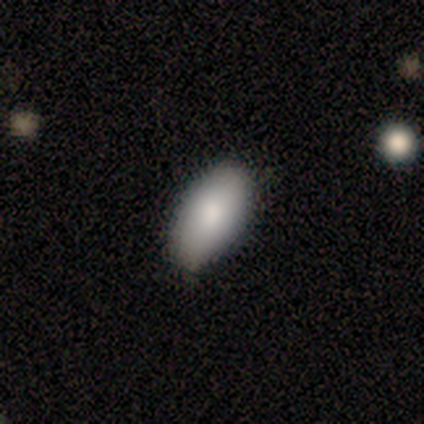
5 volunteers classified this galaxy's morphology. Smooth or featured? smooth (100%)
How rounded? in between (80%)
Merging? none (40%, tied with minor disturbance)